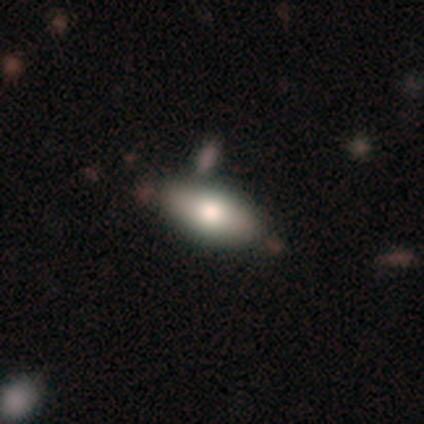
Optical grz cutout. It shows a smooth galaxy with no disk features (80%) that is in between round and cigar-shaped (75%). Merging: none (75%).